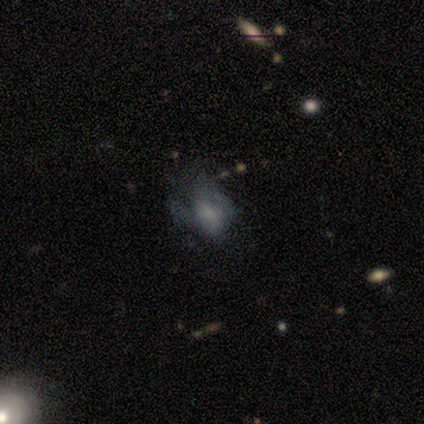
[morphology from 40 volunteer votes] smooth_or_featured: featured or disk (p=0.57) [alt: star or artifact p=0.25]
disk_edge_on: no (p=0.96) [alt: yes p=0.04]
bar: no (p=0.82) [alt: weak p=0.18]
has_spiral_arms: no (p=0.77) [alt: yes p=0.23]
bulge_size: none (p=0.45) [alt: small p=0.32]
merging: major disturbance (p=0.40) [alt: none p=0.33]